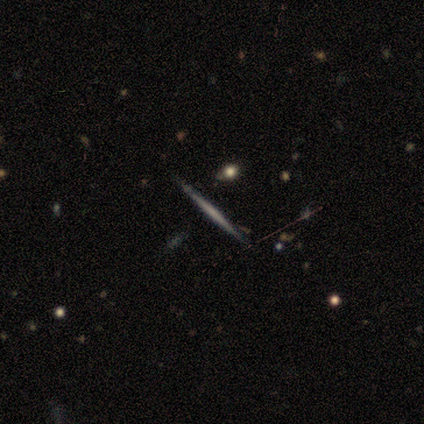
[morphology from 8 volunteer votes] Smooth or featured? 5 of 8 (62%) said featured or disk. Edge-on disk? 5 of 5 (100%) said yes. Edge-on bulge? 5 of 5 (100%) said none. Merging? 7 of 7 (100%) said none.